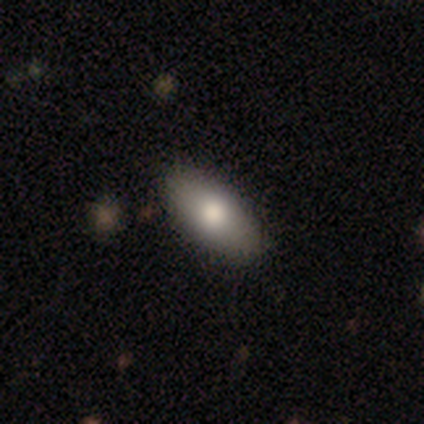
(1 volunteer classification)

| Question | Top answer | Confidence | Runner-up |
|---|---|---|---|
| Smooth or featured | smooth | 100% | — |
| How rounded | cigar-shaped | 100% | — |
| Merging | none | 100% | — |